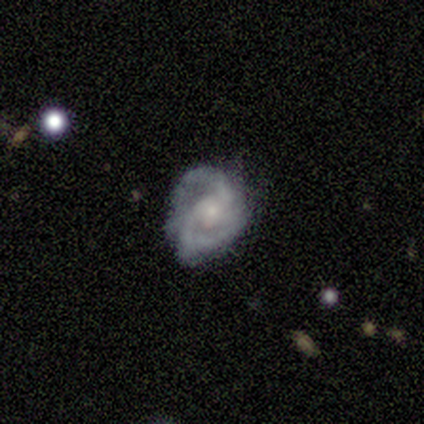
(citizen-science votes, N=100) Smooth or featured: featured or disk — 87% (smooth — 7%)
Edge-on disk: no — 99% (yes — 1%)
Bar: no — 73% (weak — 22%)
Spiral arms: yes — 99% (no — 1%)
Spiral winding: medium — 45% (tight — 35%)
Spiral arm count: 2 — 65% (can't tell — 15%)
Bulge size: small — 56% (moderate — 27%)
Merging: none — 52% (minor disturbance — 37%)